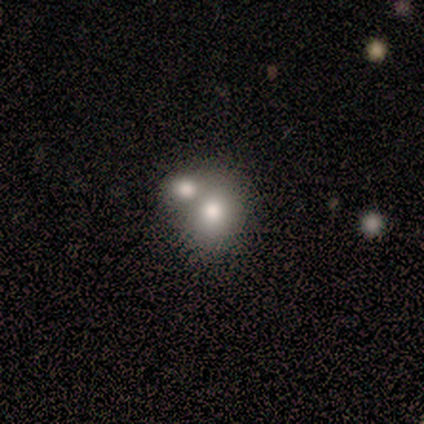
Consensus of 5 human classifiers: Smooth or featured: smooth — 80% (featured or disk — 20%)
How rounded: round — 100%
Merging: none — 80% (merger — 20%)